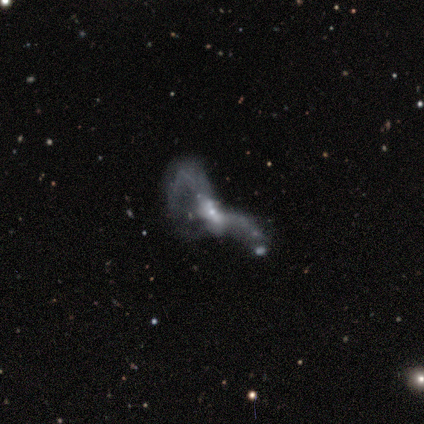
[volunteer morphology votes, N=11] This appears to be a featured or disk galaxy (64%) with no bar (50%), no spiral arms (67%) and a small central bulge (50%). Merging: major disturbance (50%, tied with merger).